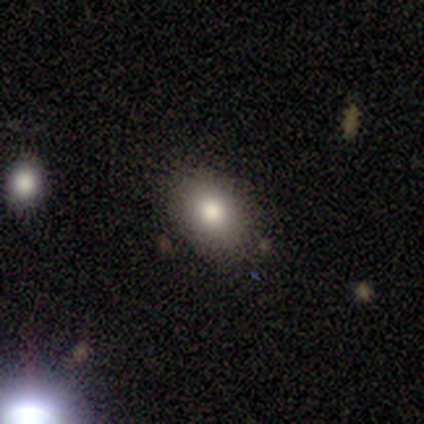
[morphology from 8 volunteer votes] This is clearly a smooth galaxy (88%). How rounded: possibly in between (57%). Merging: clearly none (88%).